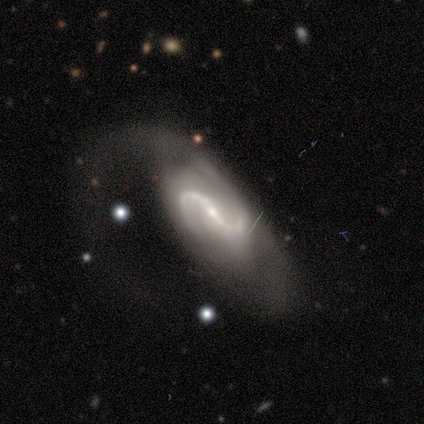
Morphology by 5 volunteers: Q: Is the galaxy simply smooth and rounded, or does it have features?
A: featured or disk — 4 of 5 (80%).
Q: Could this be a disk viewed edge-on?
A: no — 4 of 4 (100%).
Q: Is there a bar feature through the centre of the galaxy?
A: strong — 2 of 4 (50%).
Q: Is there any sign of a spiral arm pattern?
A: yes — 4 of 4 (100%).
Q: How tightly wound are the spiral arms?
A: medium — 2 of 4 (50%, tied with loose).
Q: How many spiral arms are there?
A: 2 — 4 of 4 (100%).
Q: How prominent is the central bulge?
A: small — 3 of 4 (75%).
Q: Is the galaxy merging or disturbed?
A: major disturbance — 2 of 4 (50%).